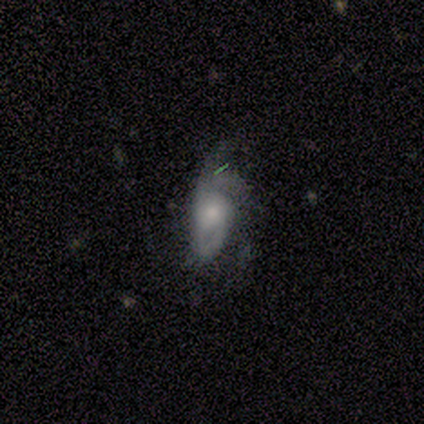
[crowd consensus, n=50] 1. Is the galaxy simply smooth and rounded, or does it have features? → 48% featured or disk, 44% smooth, 8% star or artifact.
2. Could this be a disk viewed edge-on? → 96% no, 4% yes.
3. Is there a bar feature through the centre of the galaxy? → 83% no, 13% weak, 4% strong.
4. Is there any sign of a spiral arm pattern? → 70% yes, 30% no.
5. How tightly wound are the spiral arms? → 50% medium, 25% tight, 25% loose.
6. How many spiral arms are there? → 62% 2, 12% 1, 12% 3, 12% can't tell, 0% 4, 0% more than 4.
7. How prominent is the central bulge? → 61% moderate, 35% small, 4% dominant, 0% large, 0% none.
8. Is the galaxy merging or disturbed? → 39% minor disturbance, 33% none, 28% major disturbance, 0% merger.